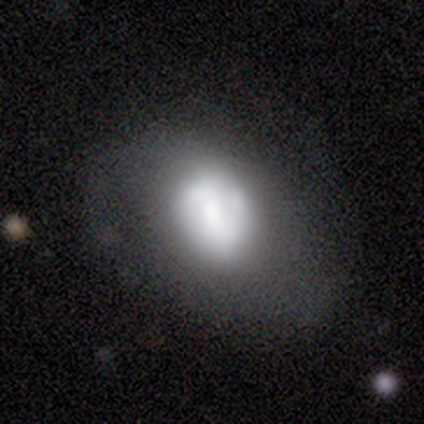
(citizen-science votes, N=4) Smooth or featured? 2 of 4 (50%, tied with featured or disk) said smooth. How rounded? 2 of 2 (100%) said in between. Merging? 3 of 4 (75%) said none.